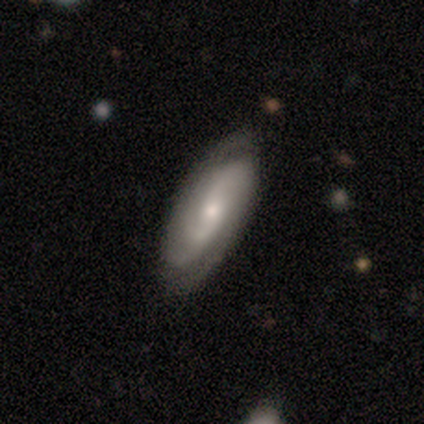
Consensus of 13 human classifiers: Smooth or featured?
  - featured or disk: 85% *
  - smooth: 15%
  - star or artifact: 0%
Edge-on disk?
  - no: 100% *
  - yes: 0%
Bar?
  - no: 73% *
  - weak: 18%
  - strong: 9%
Spiral arms?
  - yes: 100% *
  - no: 0%
Spiral winding?
  - tight: 45% *
  - medium: 27%
  - loose: 27%
Spiral arm count?
  - 2: 82% *
  - 3: 9%
  - can't tell: 9%
  - 1: 0%
  - 4: 0%
  - more than 4: 0%
Bulge size?
  - small: 64% *
  - moderate: 36%
  - dominant: 0%
  - large: 0%
  - none: 0%
Merging?
  - none: 85% *
  - minor disturbance: 8%
  - merger: 8%
  - major disturbance: 0%